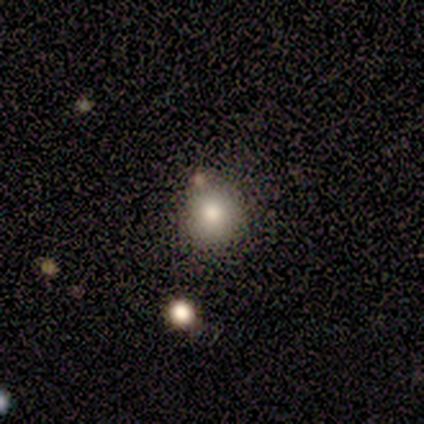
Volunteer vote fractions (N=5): Overall: smooth (80%). How rounded: round (100%). Merging: none (100%).